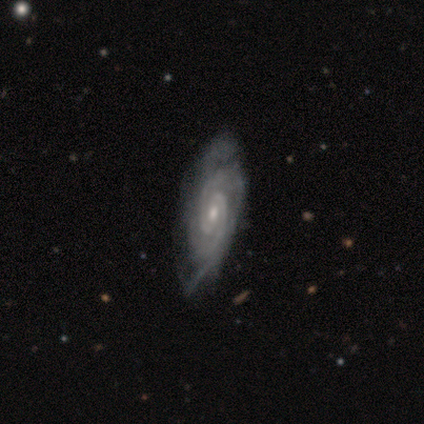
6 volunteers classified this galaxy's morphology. smooth_or_featured: featured or disk (p=1.00)
disk_edge_on: no (p=1.00)
bar: weak (p=0.67) [alt: no p=0.33]
has_spiral_arms: yes (p=1.00)
spiral_winding: tight (p=0.83) [alt: loose p=0.17]
spiral_arm_count: 2 (p=0.50) [tied with: can't tell p=0.50]
bulge_size: small (p=0.67) [alt: moderate p=0.33]
merging: minor disturbance (p=0.67) [alt: none p=0.33]